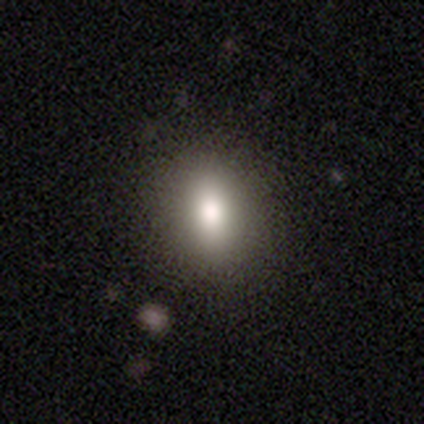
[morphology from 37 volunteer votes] Volunteers were most divided on "how rounded": in between: 62%, round: 34%, cigar-shaped: 3%. More confident: smooth or featured — smooth (86%); merging — none (53%).